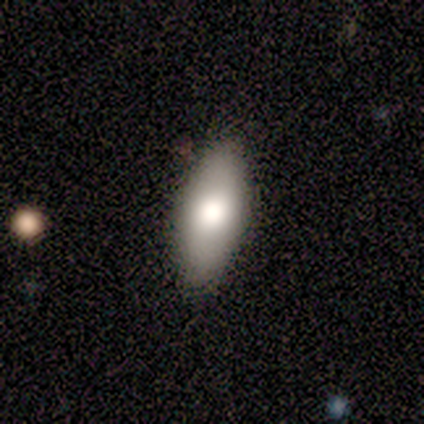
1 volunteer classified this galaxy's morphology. Smooth or featured?
  - smooth: 100% *
  - featured or disk: 0%
  - star or artifact: 0%
How rounded?
  - in between: 100% *
  - round: 0%
  - cigar-shaped: 0%
Merging?
  - minor disturbance: 100% *
  - none: 0%
  - major disturbance: 0%
  - merger: 0%